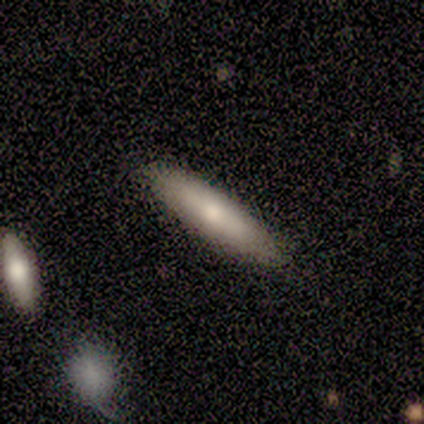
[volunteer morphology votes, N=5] Smooth or featured? smooth (60%)
How rounded? cigar-shaped (67%)
Merging? none (100%)